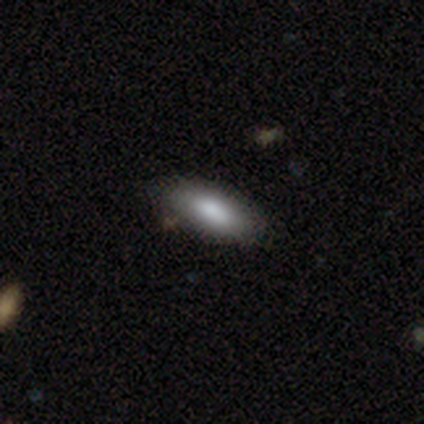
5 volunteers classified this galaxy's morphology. This appears to be a smooth galaxy with no disk features (60%) that is in between round and cigar-shaped (67%). Merging: none (50%, tied with minor disturbance).